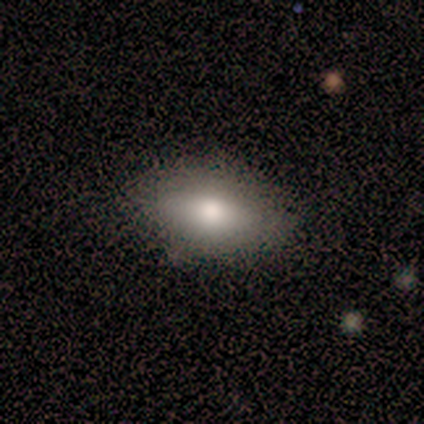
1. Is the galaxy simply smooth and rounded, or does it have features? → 60% smooth, 40% featured or disk, 0% star or artifact.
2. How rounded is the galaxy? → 100% in between, 0% round, 0% cigar-shaped.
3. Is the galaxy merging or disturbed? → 80% none, 20% minor disturbance, 0% major disturbance, 0% merger.